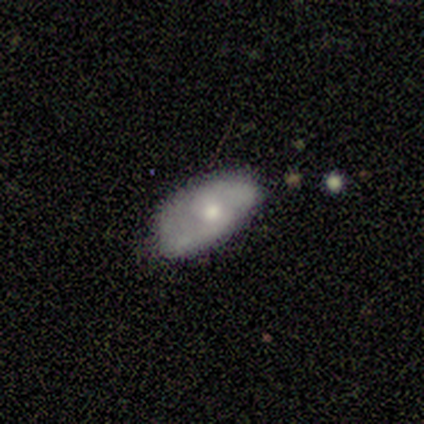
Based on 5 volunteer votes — smooth_or_featured: featured or disk (p=0.60) [alt: smooth p=0.40]
disk_edge_on: no (p=0.67) [alt: yes p=0.33]
bar: no (p=1.00)
has_spiral_arms: yes (p=1.00)
spiral_winding: medium (p=0.50) [tied with: loose p=0.50]
spiral_arm_count: 2 (p=1.00)
bulge_size: small (p=1.00)
merging: none (p=1.00)